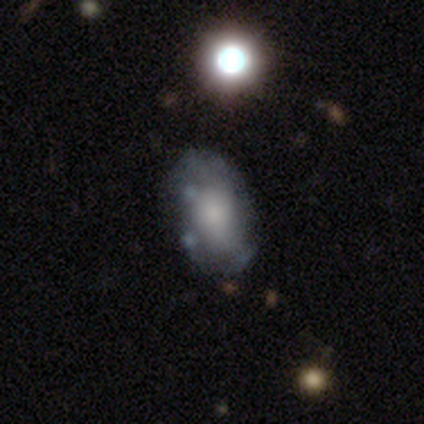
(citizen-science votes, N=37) Smooth or featured? featured or disk (54%)
Edge-on disk? no (85%)
Bar? no (88%)
Spiral arms? no (71%)
Bulge size? none (35%)
Merging? none (62%)